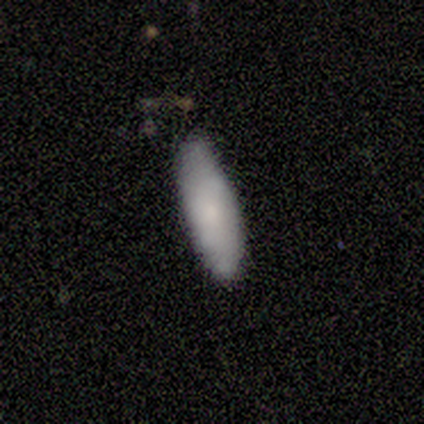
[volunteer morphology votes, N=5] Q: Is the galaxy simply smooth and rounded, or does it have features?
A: smooth — 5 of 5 (100%).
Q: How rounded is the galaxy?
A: in between — 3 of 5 (60%).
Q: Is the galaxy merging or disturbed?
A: none — 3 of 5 (60%).